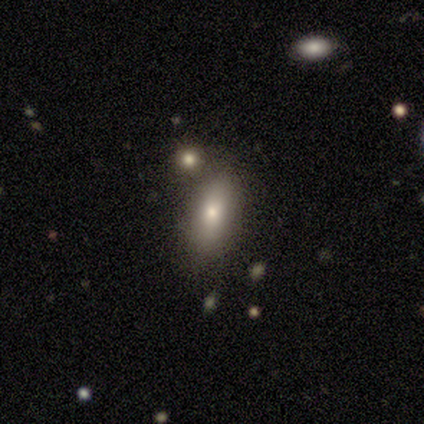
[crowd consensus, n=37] Overall: smooth (78%). How rounded: in between (79%). Merging: none (53%; minor disturbance 25%).